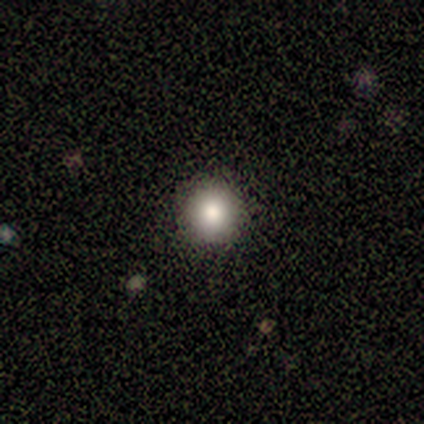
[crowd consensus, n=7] Q: Smooth or featured?
A: smooth (100%)
Q: How rounded?
A: round (100%)
Q: Merging?
A: none (100%)